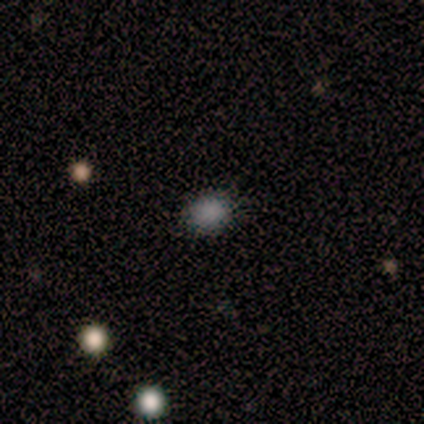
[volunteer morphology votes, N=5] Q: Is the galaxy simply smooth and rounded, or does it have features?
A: smooth — 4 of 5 (80%).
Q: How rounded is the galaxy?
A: round — 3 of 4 (75%).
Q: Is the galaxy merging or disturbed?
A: none — 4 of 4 (100%).